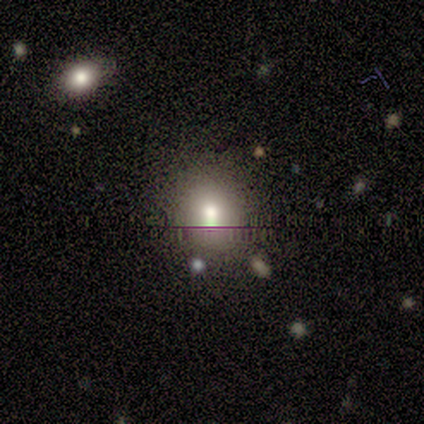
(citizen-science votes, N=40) This appears to be a smooth galaxy with no disk features (72%) that is round (79%). Merging: none (80%).